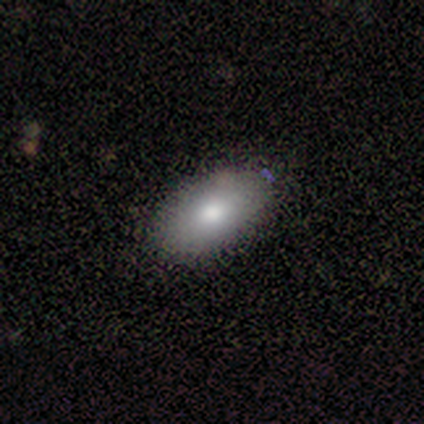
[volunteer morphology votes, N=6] A smooth galaxy with no disk features (100%) that is in between round and cigar-shaped (100%). Merging: none (83%).